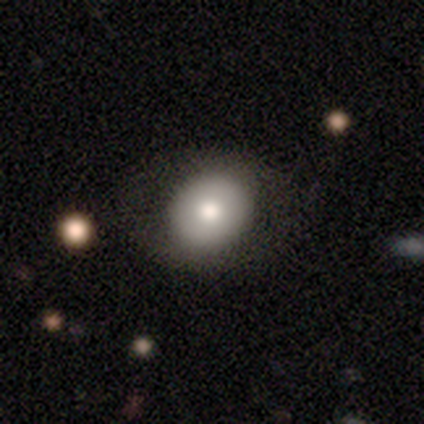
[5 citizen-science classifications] This is clearly a smooth galaxy (80%). How rounded: likely in between (75%). Merging: clearly none (100%).